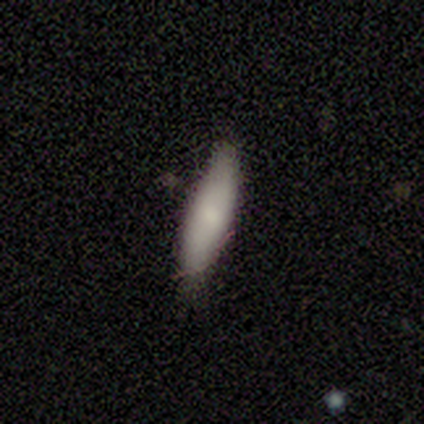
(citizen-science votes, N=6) smooth-or-featured: smooth: 50% (tied) | featured or disk: 50% (tied) | star or artifact: 0%
  how-rounded: cigar-shaped: 100% | round: 0% | in between: 0%
  merging: none: 50% (tied) | minor disturbance: 50% (tied) | major disturbance: 0% | merger: 0%